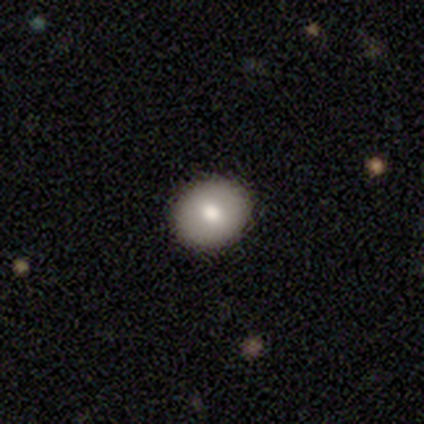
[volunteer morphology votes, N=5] smooth 80%, star or artifact 20%, featured or disk 0%. Down the decision tree: how rounded — round (50%, tied with in between); merging — none (75%).